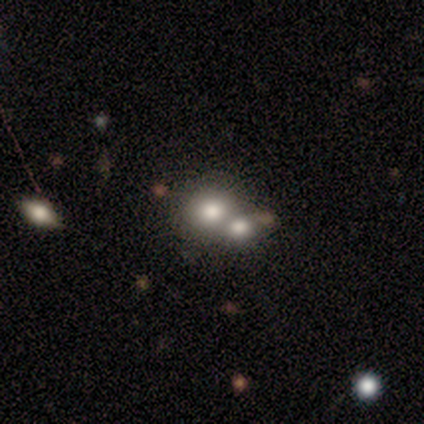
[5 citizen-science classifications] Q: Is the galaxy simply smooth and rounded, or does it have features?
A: smooth — 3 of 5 (60%).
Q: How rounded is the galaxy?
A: round — 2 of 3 (67%).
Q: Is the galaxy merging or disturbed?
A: merger — 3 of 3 (100%).